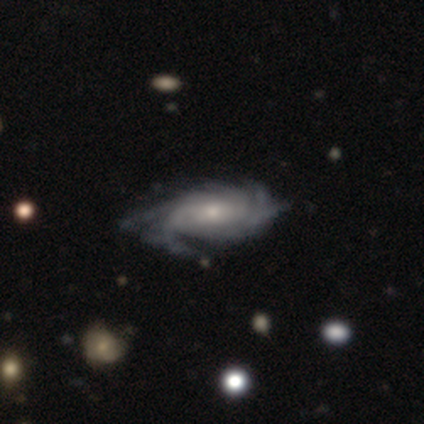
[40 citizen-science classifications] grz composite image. It shows a featured or disk galaxy (85%) with no bar (65%), 4 (30%, tied with can't tell) tight (52%) spiral arms (97%) and a moderate central bulge (47%, tied with small). Merging: none (38%).